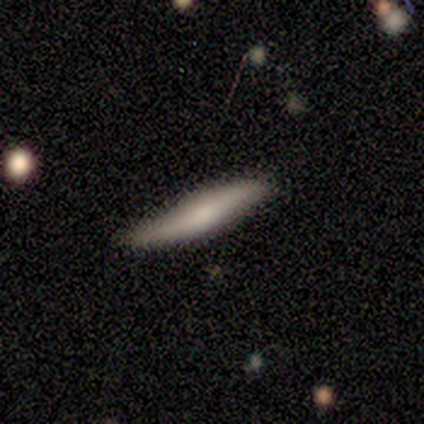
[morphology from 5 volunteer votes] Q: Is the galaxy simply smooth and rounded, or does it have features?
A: smooth — 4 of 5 (80%).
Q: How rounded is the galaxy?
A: cigar-shaped — 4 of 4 (100%).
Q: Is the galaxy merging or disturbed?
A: none — 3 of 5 (60%).